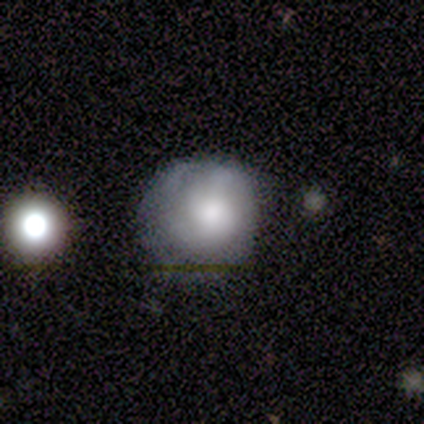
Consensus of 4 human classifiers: Smooth or featured? 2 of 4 (50%, tied with star or artifact) said featured or disk. Edge-on disk? 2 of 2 (100%) said no. Bar? 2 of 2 (100%) said no. Spiral arms? 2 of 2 (100%) said yes. Spiral winding? 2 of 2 (100%) said tight. Spiral arm count? 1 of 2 (50%, tied with can't tell) said 1. Bulge size? 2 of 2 (100%) said moderate. Merging? 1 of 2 (50%, tied with minor disturbance) said none.